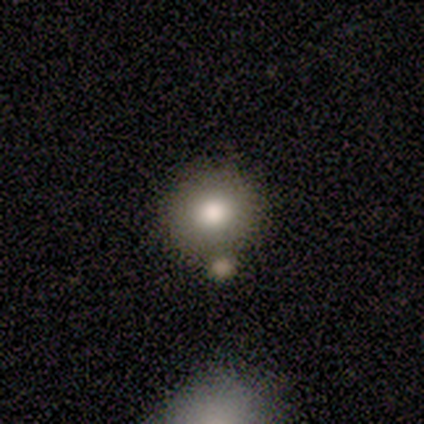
smooth 100%, featured or disk 0%, star or artifact 0%. Down the decision tree: how rounded — round (75%); merging — none (75%).